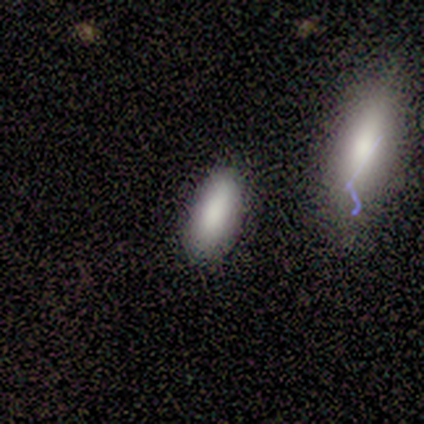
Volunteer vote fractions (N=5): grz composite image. It shows a smooth galaxy with no disk features (100%) that is in between round and cigar-shaped (80%). Merging: none (80%).